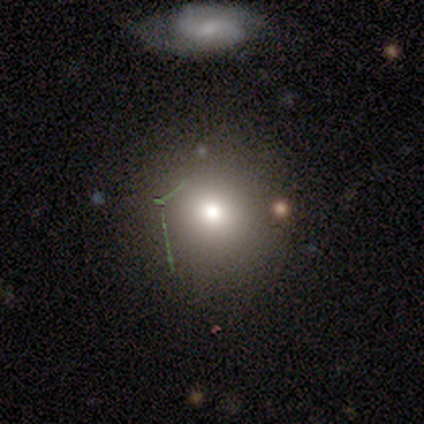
Morphology: type=smooth (50%); roundness=round (100%); merging=none (75%).